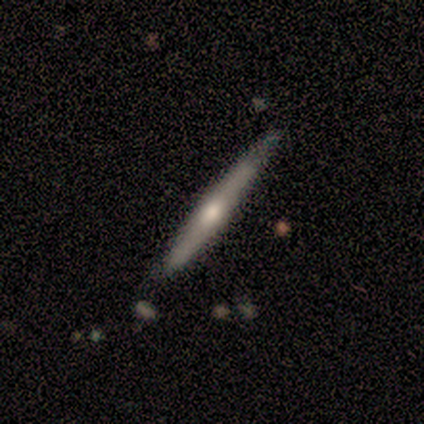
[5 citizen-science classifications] This is clearly a featured or disk galaxy (80%). It is likely viewed edge-on (75%). Edge-on bulge: likely rounded (67%). Merging: clearly none (100%).